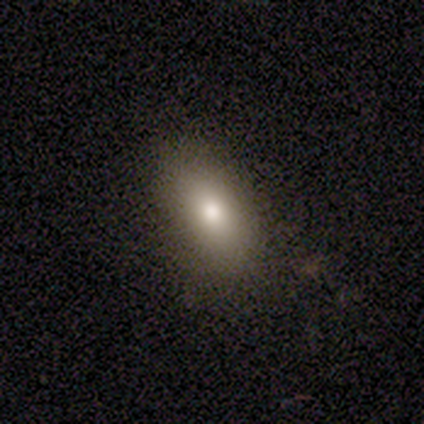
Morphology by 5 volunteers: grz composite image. It shows a smooth galaxy with no disk features (80%) that is in between round and cigar-shaped (100%). Merging: none (80%).